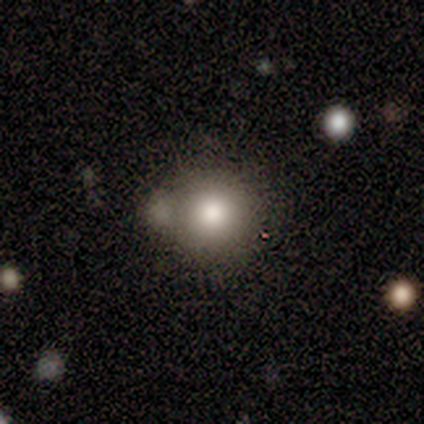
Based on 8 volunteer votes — A smooth galaxy with no disk features (75%) that is round (67%).

Vote fractions:
- Smooth or featured? smooth: 75% / featured or disk: 12% / star or artifact: 12%
- How rounded? round: 67% / in between: 33% / cigar-shaped: 0%
- Merging? none: 86% / minor disturbance: 14% / major disturbance: 0% / merger: 0%